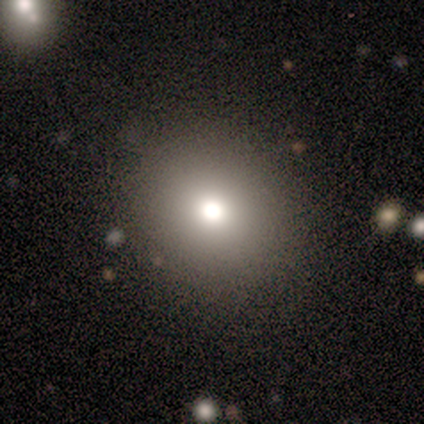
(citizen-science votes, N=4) Volunteers were most divided on "smooth or featured" (2-way tie): smooth: 50%, star or artifact: 50%, featured or disk: 0%. More confident: how rounded — round (100%); merging — none (100%).